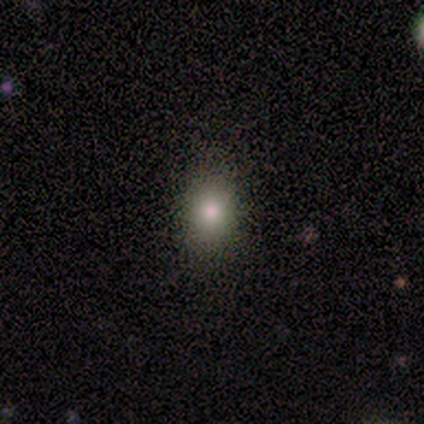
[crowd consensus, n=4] Smooth or featured? smooth (50%, tied with star or artifact)
How rounded? in between (100%)
Merging? none (100%)